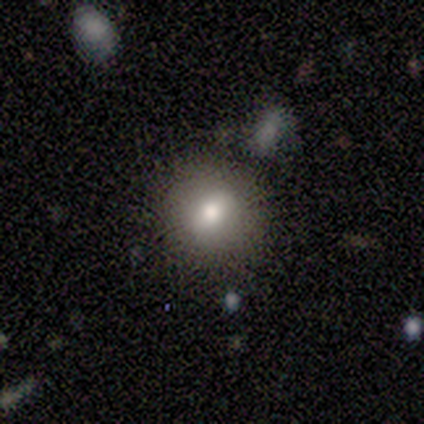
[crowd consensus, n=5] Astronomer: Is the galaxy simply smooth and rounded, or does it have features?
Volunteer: smooth — 80%.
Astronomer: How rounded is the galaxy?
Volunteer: round — 100%.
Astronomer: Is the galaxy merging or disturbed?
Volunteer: none — 100%.